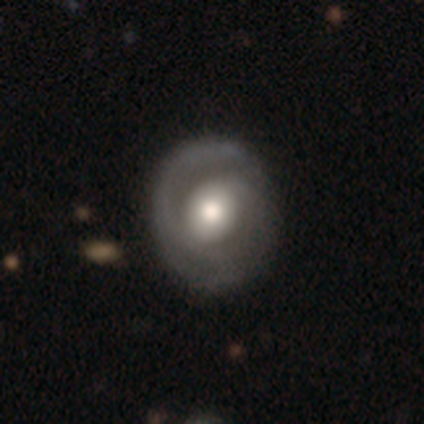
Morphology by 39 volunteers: A featured or disk galaxy (79%) with no bar (65%), 2 (62%) medium (50%) spiral arms (84%) and a moderate central bulge (52%).

Vote fractions:
- Smooth or featured? featured or disk: 79% / smooth: 21% / star or artifact: 0%
- Edge-on disk? no: 100% / yes: 0%
- Bar? no: 65% / weak: 26% / strong: 10%
- Spiral arms? yes: 84% / no: 16%
- Spiral winding? medium: 50% / tight: 42% / loose: 8%
- Spiral arm count? 2: 62% / 1: 27% / can't tell: 12% / 3: 0% / 4: 0% / more than 4: 0%
- Bulge size? moderate: 52% / large: 32% / dominant: 6% / none: 6% / small: 3%
- Merging? none: 41% / minor disturbance: 13% / major disturbance: 13% / merger: 3%